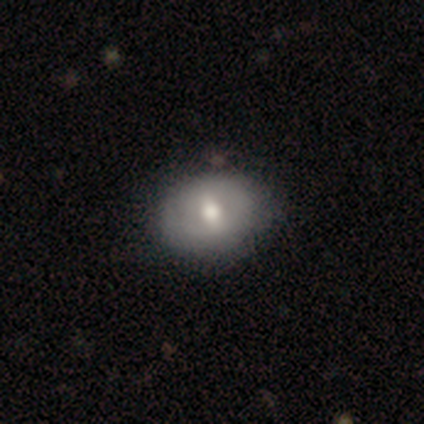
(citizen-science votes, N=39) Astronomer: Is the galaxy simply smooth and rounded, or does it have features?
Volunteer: smooth — 69%.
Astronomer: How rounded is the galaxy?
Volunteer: in between — 63%.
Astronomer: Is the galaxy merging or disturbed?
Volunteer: none — 81%.